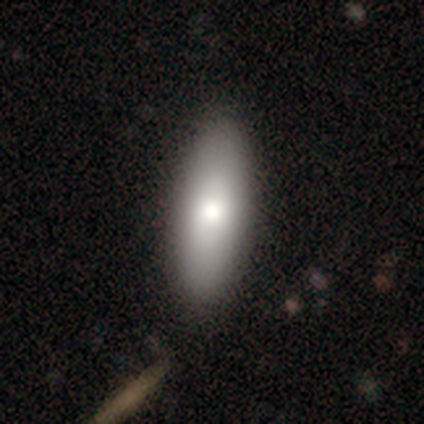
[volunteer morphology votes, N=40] Smooth or featured? smooth (72%)
How rounded? in between (76%)
Merging? none (58%)